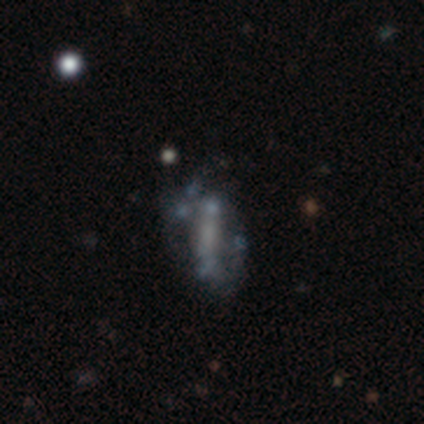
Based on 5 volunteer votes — featured or disk 100%, smooth 0%, star or artifact 0%. Down the decision tree: edge-on disk — no (80%); bar — strong (75%); spiral arms — yes (75%); spiral arm count — can't tell (67%); spiral winding — loose (67%); bulge size — small (50%, tied with none); merging — none (80%).